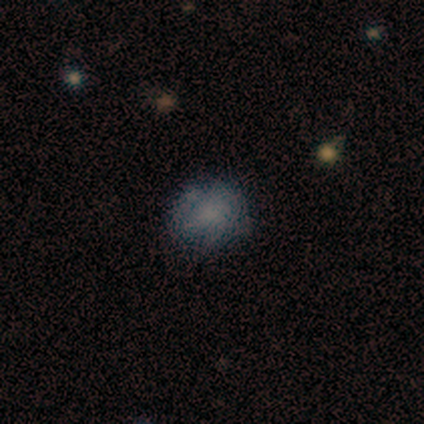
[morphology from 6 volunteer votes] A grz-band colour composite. It shows a smooth galaxy with no disk features (67%) that is round (100%). Merging: none (100%).